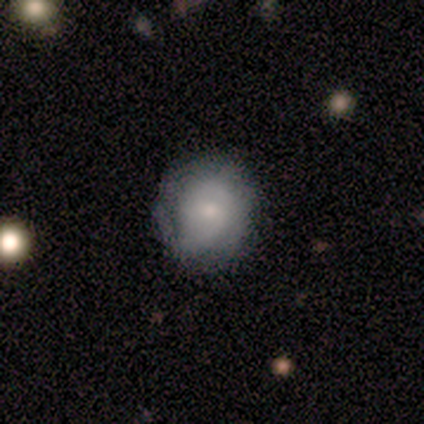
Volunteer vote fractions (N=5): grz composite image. It shows a featured or disk galaxy (60%) with no bar (67%), 1 (50%, tied with can't tell) tight (50%, tied with loose) spiral arms (67%) and a small central bulge (67%). Merging: none (80%).